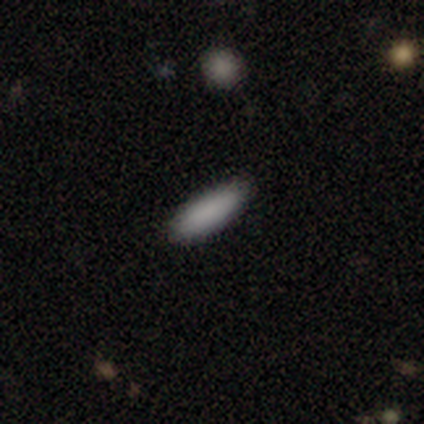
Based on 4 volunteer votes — A smooth galaxy with no disk features (100%) that is in between round and cigar-shaped (75%).

Vote fractions:
- Smooth or featured? smooth: 100% / featured or disk: 0% / star or artifact: 0%
- How rounded? in between: 75% / cigar-shaped: 25% / round: 0%
- Merging? none: 100% / minor disturbance: 0% / major disturbance: 0% / merger: 0%